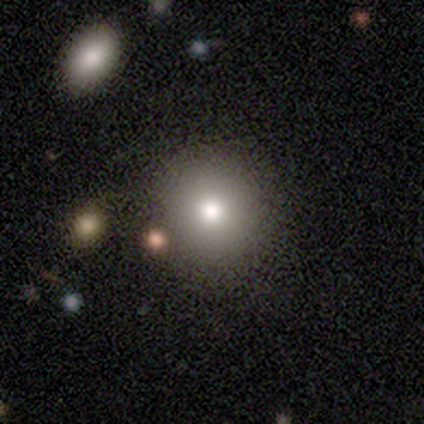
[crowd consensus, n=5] This appears to be a smooth galaxy with no disk features (60%) that is round (67%). Merging: none (80%).